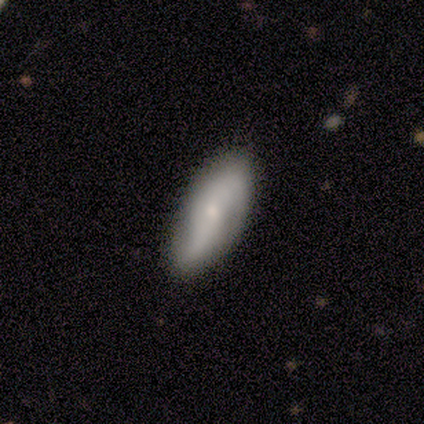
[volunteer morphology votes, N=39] type=featured or disk (56%); edge-on=no (77%); bar=no (65%); spiral arms=yes (65%); winding=tight (36%, tied with loose); arm count=2 (73%); bulge=small (76%); merging=none (70%).